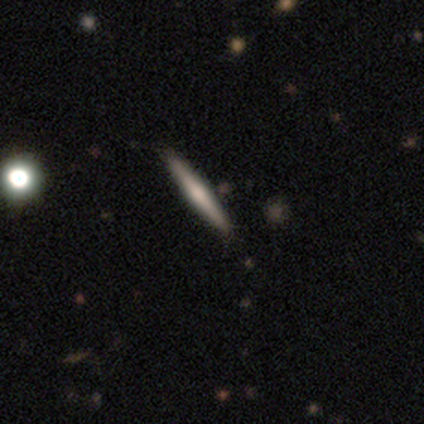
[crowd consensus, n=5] Smooth or featured?
  - featured or disk: 60% *
  - smooth: 40%
  - star or artifact: 0%
Edge-on disk?
  - yes: 100% *
  - no: 0%
Edge-on bulge?
  - rounded: 100% *
  - boxy: 0%
  - none: 0%
Merging?
  - none: 80% *
  - minor disturbance: 20%
  - major disturbance: 0%
  - merger: 0%